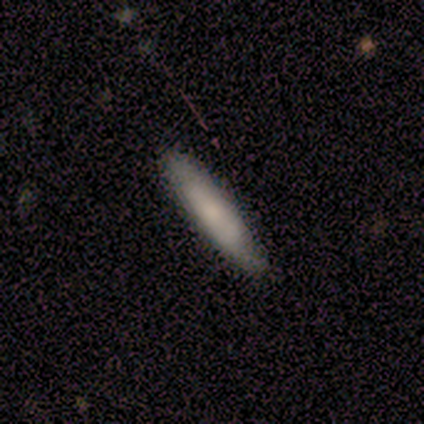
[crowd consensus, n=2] Smooth or featured? smooth (100%)
How rounded? cigar-shaped (100%)
Merging? none (50%, tied with major disturbance)